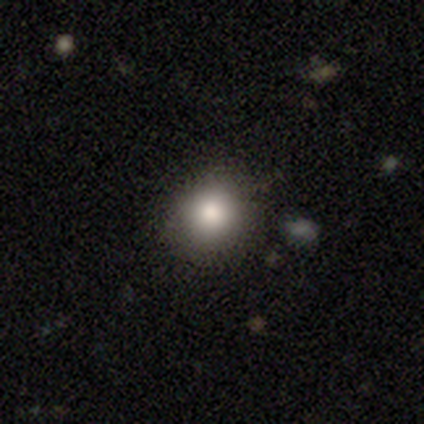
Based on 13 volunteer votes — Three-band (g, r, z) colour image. It shows a smooth galaxy with no disk features (77%) that is round (90%). Merging: none (73%).